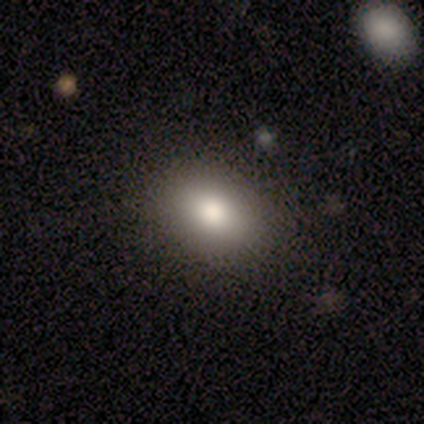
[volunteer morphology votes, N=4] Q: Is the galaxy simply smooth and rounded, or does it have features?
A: smooth — 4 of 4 (100%).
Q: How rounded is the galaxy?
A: in between — 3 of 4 (75%).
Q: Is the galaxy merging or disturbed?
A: none — 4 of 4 (100%).